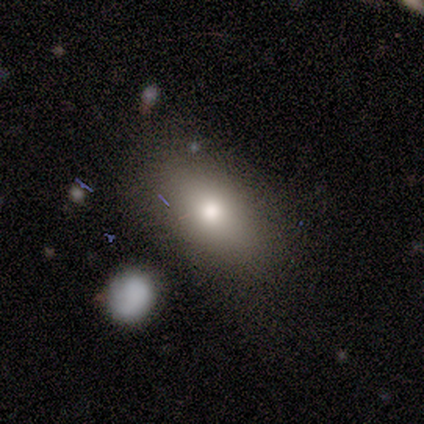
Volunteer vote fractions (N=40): smooth_or_featured: smooth (p=0.78) [alt: star or artifact p=0.12]
how_rounded: in between (p=0.84) [alt: round p=0.16]
merging: none (p=0.74) [alt: minor disturbance p=0.17]